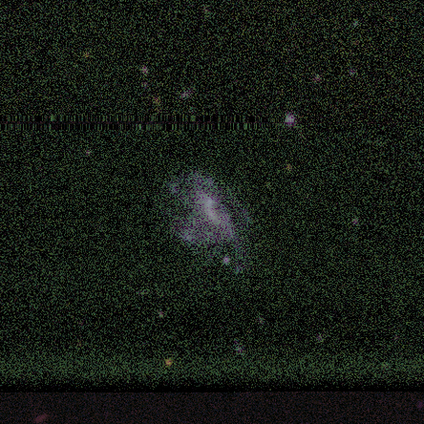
Smooth or featured?
  - featured or disk: 71% *
  - smooth: 14%
  - star or artifact: 14%
Edge-on disk?
  - no: 100% *
  - yes: 0%
Bar?
  - no: 80% *
  - strong: 20%
  - weak: 0%
Spiral arms?
  - no: 80% *
  - yes: 20%
Bulge size?
  - none: 80% *
  - moderate: 20%
  - dominant: 0%
  - large: 0%
  - small: 0%
Merging?
  - none: 83% *
  - minor disturbance: 17%
  - major disturbance: 0%
  - merger: 0%